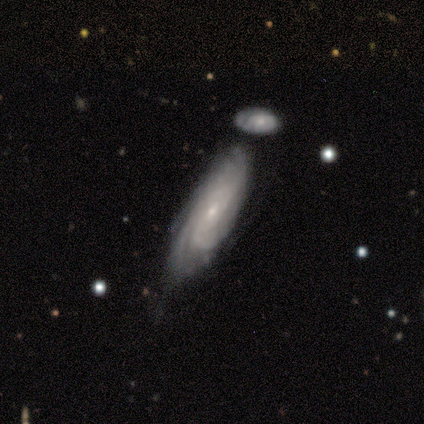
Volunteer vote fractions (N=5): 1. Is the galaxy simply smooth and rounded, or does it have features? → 80% featured or disk, 20% smooth, 0% star or artifact.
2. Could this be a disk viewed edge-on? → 75% no, 25% yes.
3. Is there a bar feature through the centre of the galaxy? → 67% no, 33% weak, 0% strong.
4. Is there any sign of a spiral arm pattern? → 100% yes, 0% no.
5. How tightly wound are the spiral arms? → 67% medium, 33% tight, 0% loose.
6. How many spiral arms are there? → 33% 1 (tied), 33% more than 4 (tied), 33% can't tell (tied), 0% 2, 0% 3, 0% 4.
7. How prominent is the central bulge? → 67% small, 33% moderate, 0% dominant, 0% large, 0% none.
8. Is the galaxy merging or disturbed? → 80% none, 20% merger, 0% minor disturbance, 0% major disturbance.